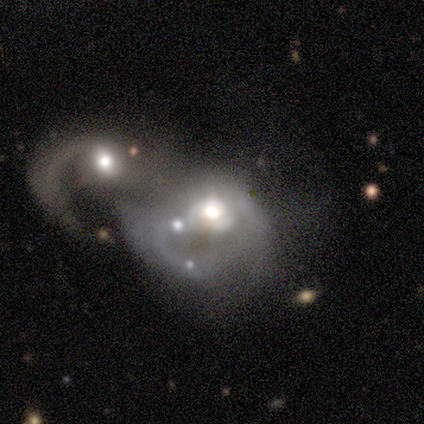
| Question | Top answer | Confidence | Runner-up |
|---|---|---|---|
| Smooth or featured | featured or disk | 88% | smooth (6%) |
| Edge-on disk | no | 100% | — |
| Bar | no | 80% | weak (20%) |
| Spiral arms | no | 53% | yes (47%) |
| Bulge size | moderate | 73% | small (13%) |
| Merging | merger | 81% | major disturbance (12%) |